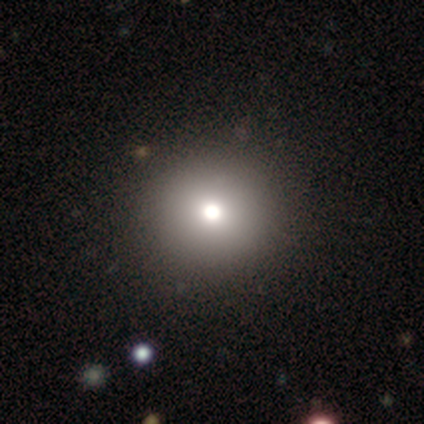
Smooth or featured?
  - smooth: 40% * (tied)
  - featured or disk: 40% * (tied)
  - star or artifact: 20%
How rounded?
  - round: 50% * (tied)
  - in between: 50% * (tied)
  - cigar-shaped: 0%
Merging?
  - none: 75% *
  - merger: 25%
  - minor disturbance: 0%
  - major disturbance: 0%